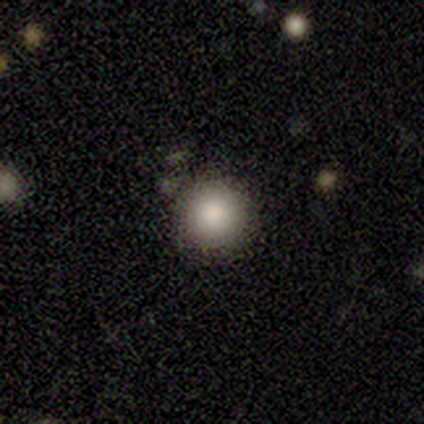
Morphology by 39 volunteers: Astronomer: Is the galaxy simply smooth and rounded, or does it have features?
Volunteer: smooth — 72%.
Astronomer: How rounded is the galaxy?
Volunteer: round — 96%.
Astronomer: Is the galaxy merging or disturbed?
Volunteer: none — 88%.